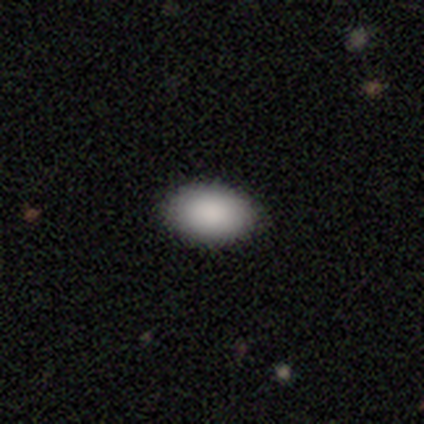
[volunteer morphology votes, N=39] Overall: smooth (87%). How rounded: in between (85%). Merging: none (89%).